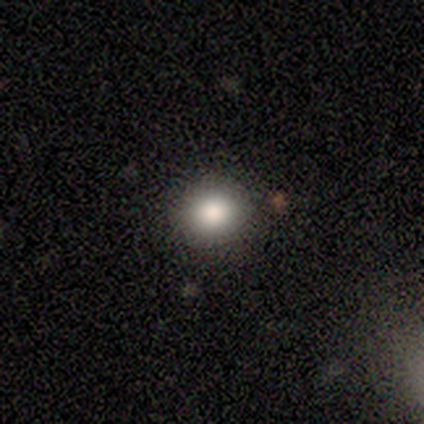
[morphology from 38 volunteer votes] A smooth galaxy with no disk features (76%) that is round (76%). Merging: none (94%).